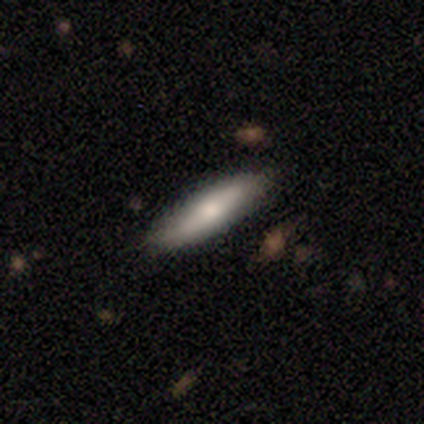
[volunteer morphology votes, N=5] Q: Smooth or featured?
A: smooth (60%); runner-up: featured or disk (40%)
Q: How rounded?
A: cigar-shaped (100%)
Q: Merging?
A: none (60%); runner-up: minor disturbance (20%)